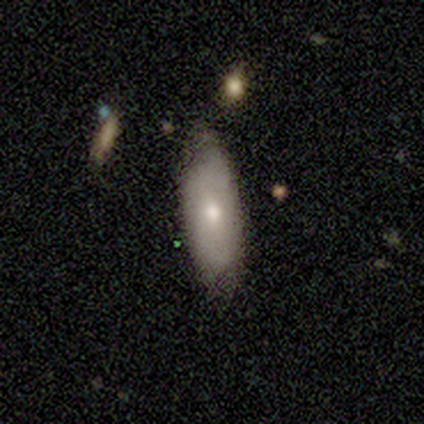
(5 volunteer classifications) Smooth or featured?
  - smooth: 80% *
  - featured or disk: 20%
  - star or artifact: 0%
How rounded?
  - in between: 100% *
  - round: 0%
  - cigar-shaped: 0%
Merging?
  - none: 80% *
  - minor disturbance: 20%
  - major disturbance: 0%
  - merger: 0%